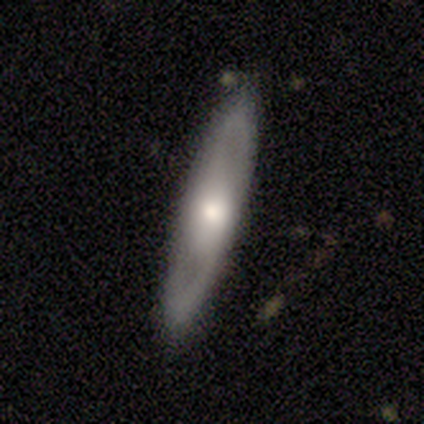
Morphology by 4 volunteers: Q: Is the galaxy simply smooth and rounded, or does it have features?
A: smooth — 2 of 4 (50%, tied with featured or disk).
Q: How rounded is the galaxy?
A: cigar-shaped — 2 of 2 (100%).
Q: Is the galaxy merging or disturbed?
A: none — 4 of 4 (100%).